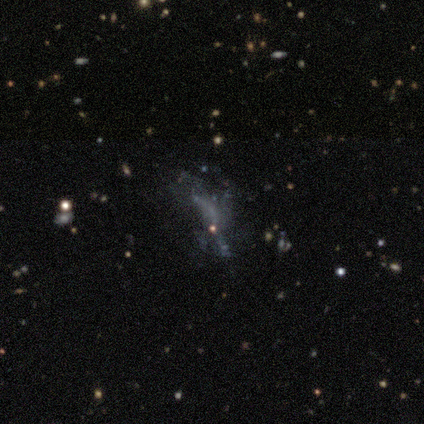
featured or disk 61%, star or artifact 28%, smooth 11%. Down the decision tree: edge-on disk — no (95%); bar — no (95%); spiral arms — no (90%); bulge size — none (81%); merging — major disturbance (42%).